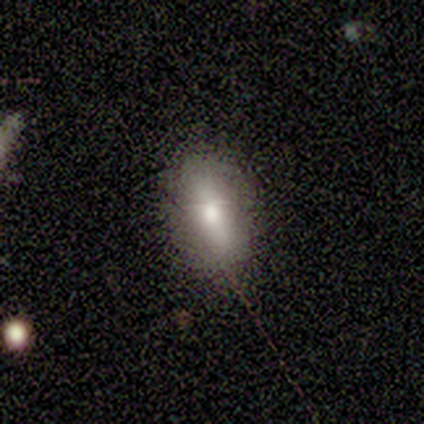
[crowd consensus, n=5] Smooth or featured? 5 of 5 (100%) said smooth. How rounded? 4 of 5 (80%) said in between. Merging? 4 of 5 (80%) said none.